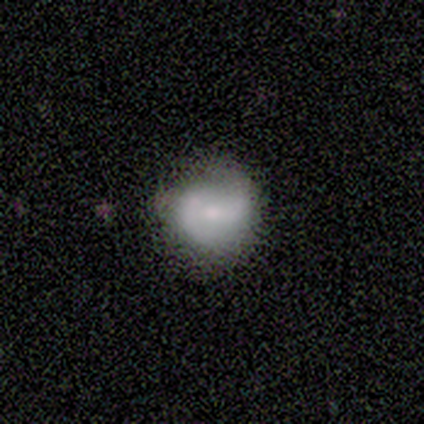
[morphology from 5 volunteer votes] smooth_or_featured: smooth (p=0.40) [tied with: featured or disk p=0.40]
how_rounded: round (p=1.00)
merging: none (p=0.75) [alt: minor disturbance p=0.25]